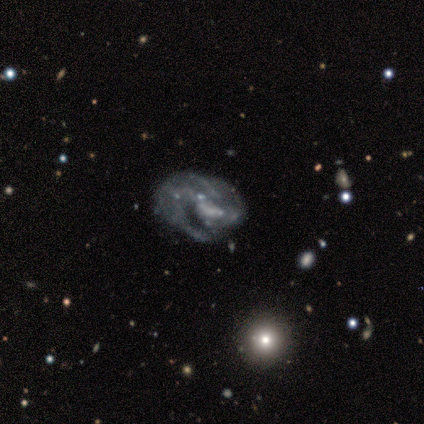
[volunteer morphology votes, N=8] type=featured or disk (88%); edge-on=no (100%); bar=no (86%); spiral arms=no (71%); bulge=none (71%); merging=minor disturbance (50%).